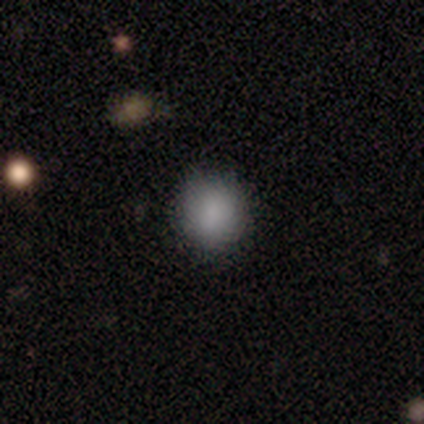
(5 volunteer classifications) Smooth or featured? smooth (100%)
How rounded? round (100%)
Merging? none (100%)